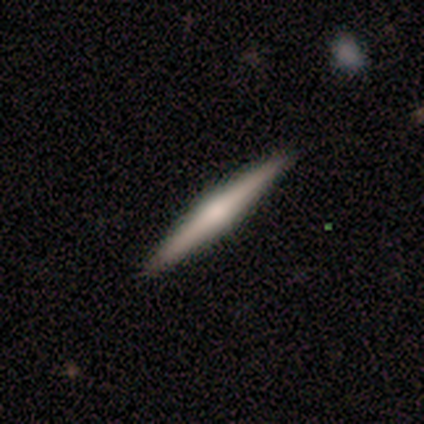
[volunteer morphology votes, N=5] Q: Smooth or featured?
A: featured or disk (60%); runner-up: smooth (40%)
Q: Edge-on disk?
A: yes (100%)
Q: Edge-on bulge?
A: rounded (67%); runner-up: none (33%)
Q: Merging?
A: none (100%)